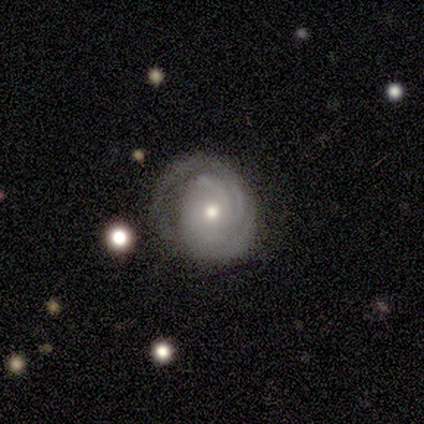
featured or disk 80%, smooth 20%, star or artifact 0%. Down the decision tree: edge-on disk — no (100%); bar — no (100%); spiral arms — yes (100%); spiral arm count — 3 (50%, tied with can't tell); spiral winding — tight (100%); bulge size — moderate (100%); merging — major disturbance (60%).